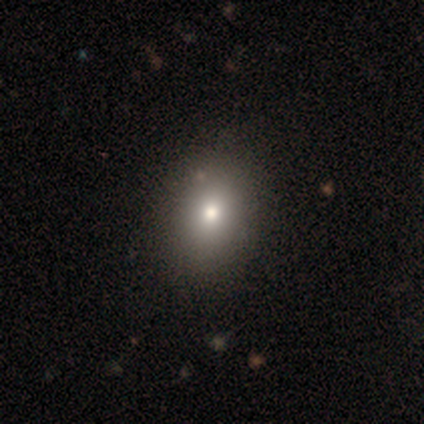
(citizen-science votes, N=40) smooth-or-featured: smooth: 82% | star or artifact: 10% | featured or disk: 8%
  how-rounded: in between: 67% | round: 33% | cigar-shaped: 0%
  merging: none: 64% | major disturbance: 3% | merger: 3% | minor disturbance: 0%